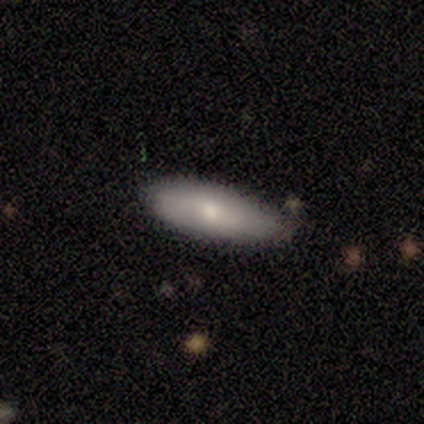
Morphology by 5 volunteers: Smooth or featured? featured or disk (60%)
Edge-on disk? no (100%)
Bar? no (67%)
Spiral arms? no (67%)
Bulge size? moderate (100%)
Merging? none (100%)